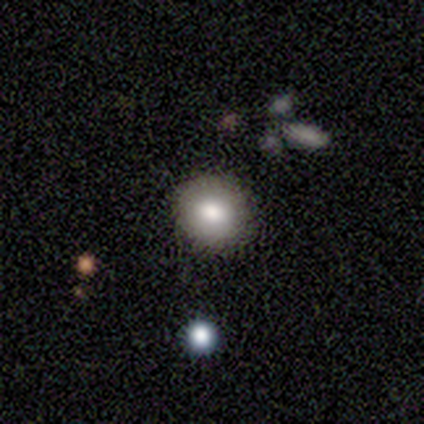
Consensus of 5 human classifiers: Smooth or featured: smooth — 40% (tied with featured or disk — 40%)
How rounded: round — 100%
Merging: none — 75% (merger — 25%)